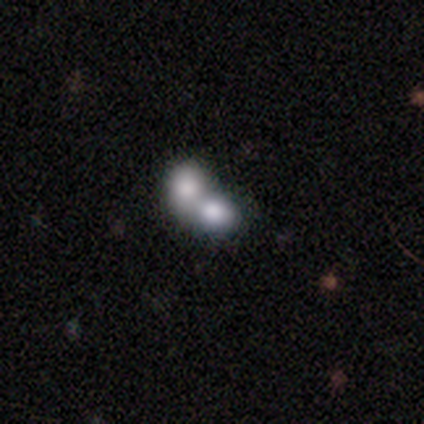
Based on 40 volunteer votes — Smooth or featured: smooth — 68% (featured or disk — 22%)
How rounded: in between — 56% (round — 44%)
Merging: merger — 89% (none — 11%)